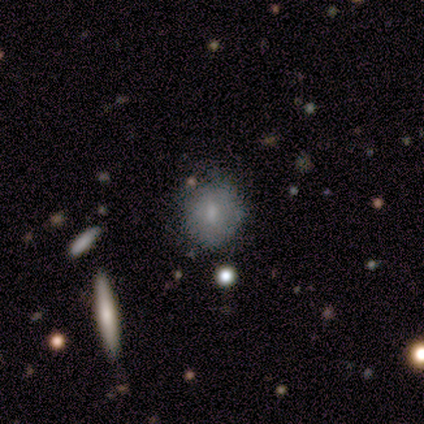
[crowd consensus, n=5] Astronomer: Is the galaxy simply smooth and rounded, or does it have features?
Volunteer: smooth — 80%.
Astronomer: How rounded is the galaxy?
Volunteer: round — 100%.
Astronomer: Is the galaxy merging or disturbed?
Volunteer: none — 100%.